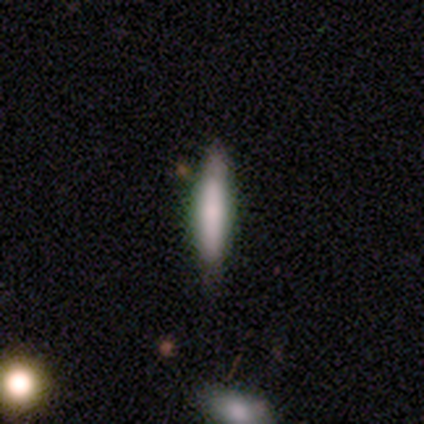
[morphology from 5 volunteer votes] Smooth or featured? 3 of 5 (60%) said smooth. How rounded? 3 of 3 (100%) said cigar-shaped. Merging? 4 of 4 (100%) said none.